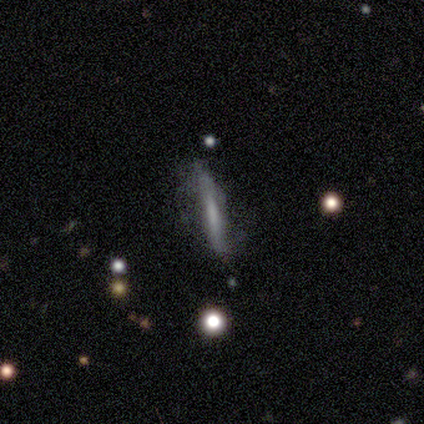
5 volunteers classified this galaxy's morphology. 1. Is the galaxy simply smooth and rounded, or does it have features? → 80% smooth, 20% featured or disk, 0% star or artifact.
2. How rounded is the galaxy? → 75% cigar-shaped, 25% in between, 0% round.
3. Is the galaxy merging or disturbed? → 60% none, 40% major disturbance, 0% minor disturbance, 0% merger.